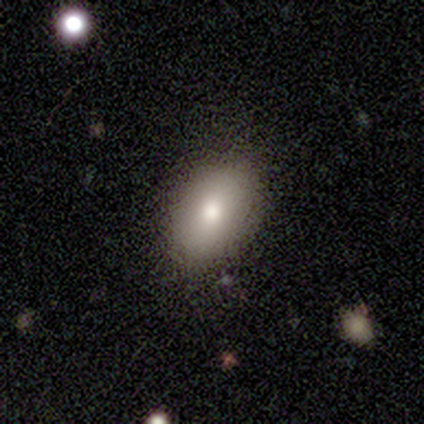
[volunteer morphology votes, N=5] smooth 80%, featured or disk 20%, star or artifact 0%. Down the decision tree: how rounded — in between (100%); merging — none (80%).